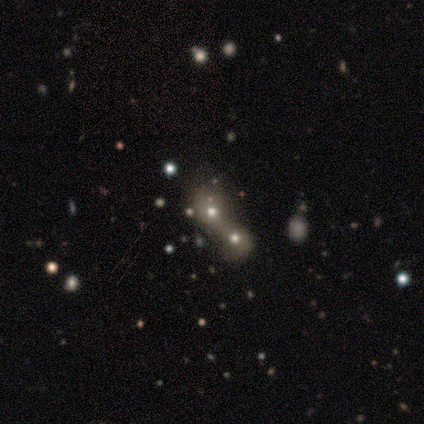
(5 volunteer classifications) Volunteers were most divided on "how rounded" (2-way tie): round: 50%, in between: 50%, cigar-shaped: 0%. More confident: merging — merger (100%); smooth or featured — smooth (80%).